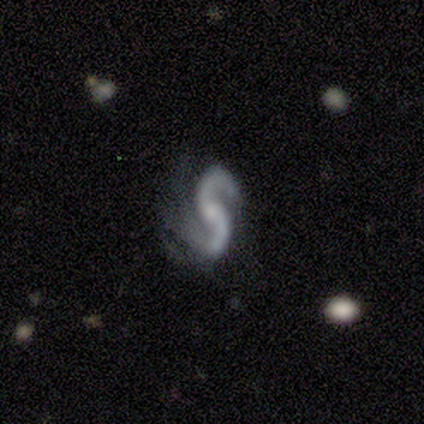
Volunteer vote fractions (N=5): Smooth or featured: featured or disk — 100%
Edge-on disk: no — 100%
Bar: no — 100%
Spiral arms: yes — 100%
Spiral winding: loose — 60% (tight — 20%)
Spiral arm count: 2 — 80% (can't tell — 20%)
Bulge size: moderate — 40% (tied with small — 40%)
Merging: major disturbance — 80% (none — 20%)